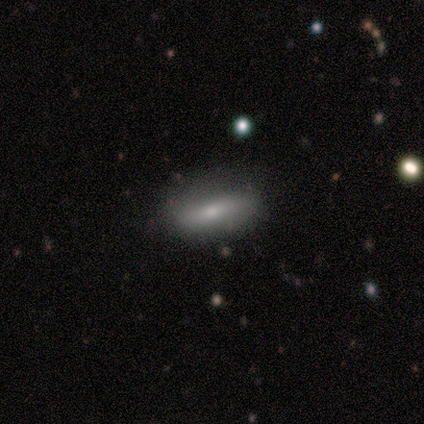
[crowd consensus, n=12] Smooth or featured: smooth — 67% (featured or disk — 25%)
How rounded: in between — 62% (cigar-shaped — 38%)
Merging: none — 91% (major disturbance — 9%)